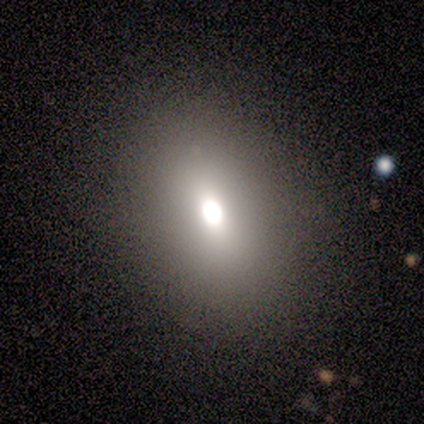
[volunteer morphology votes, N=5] smooth 40% (tied), featured or disk 40% (tied), star or artifact 20%. Down the decision tree: how rounded — round (50%, tied with in between); merging — none (75%).